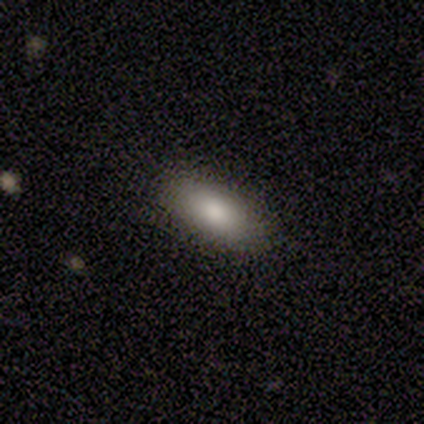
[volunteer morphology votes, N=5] Smooth or featured? 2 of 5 (40%, tied with featured or disk) said smooth. How rounded? 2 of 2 (100%) said in between. Merging? 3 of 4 (75%) said none.